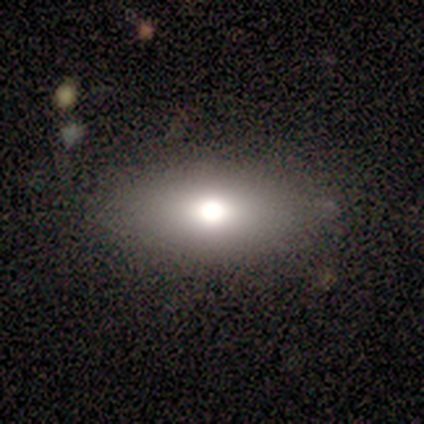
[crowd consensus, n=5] Volunteers were most divided on "smooth or featured" (2-way tie): smooth: 40%, featured or disk: 40%, star or artifact: 20%; "how rounded" (2-way tie): round: 50%, in between: 50%, cigar-shaped: 0%. More confident: merging — none (75%).